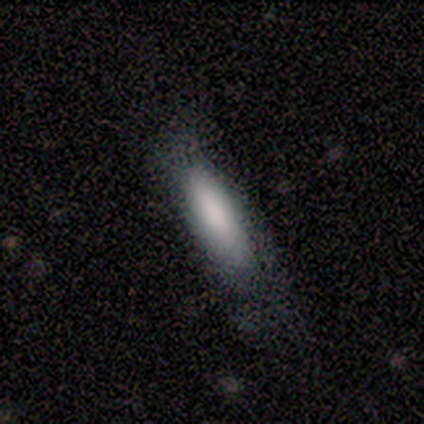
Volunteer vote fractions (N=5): A smooth galaxy with no disk features (100%) that is cigar-shaped (80%).

Vote fractions:
- Smooth or featured? smooth: 100% / featured or disk: 0% / star or artifact: 0%
- How rounded? cigar-shaped: 80% / in between: 20% / round: 0%
- Merging? none: 80% / minor disturbance: 20% / major disturbance: 0% / merger: 0%